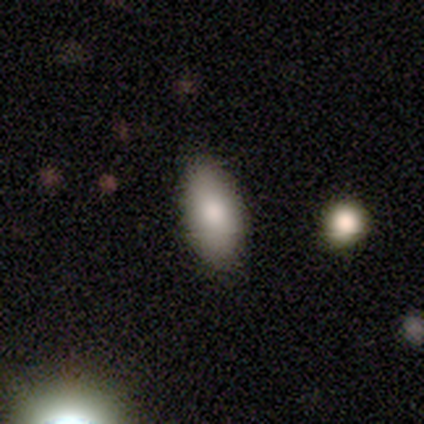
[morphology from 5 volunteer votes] A smooth galaxy with no disk features (100%) that is in between round and cigar-shaped (100%).

Vote fractions:
- Smooth or featured? smooth: 100% / featured or disk: 0% / star or artifact: 0%
- How rounded? in between: 100% / round: 0% / cigar-shaped: 0%
- Merging? none: 100% / minor disturbance: 0% / major disturbance: 0% / merger: 0%